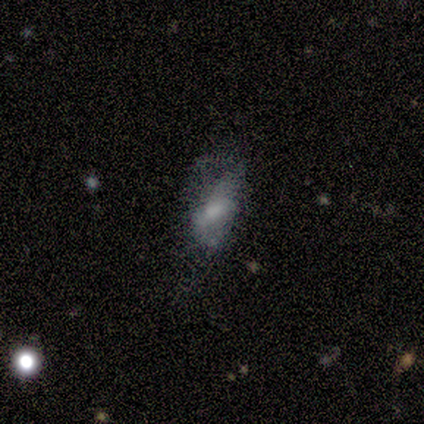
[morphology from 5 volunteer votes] Smooth or featured? 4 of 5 (80%) said featured or disk. Edge-on disk? 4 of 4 (100%) said no. Bar? 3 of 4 (75%) said no. Spiral arms? 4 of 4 (100%) said no. Bulge size? 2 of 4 (50%) said none. Merging? 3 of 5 (60%) said major disturbance.